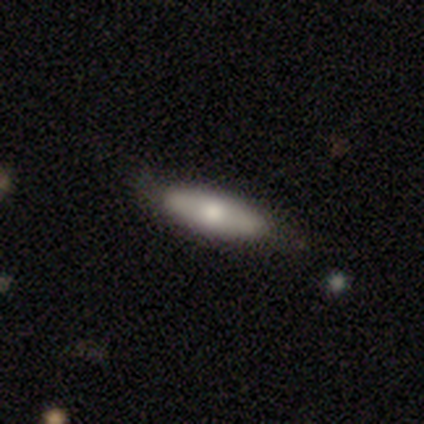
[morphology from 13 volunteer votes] smooth_or_featured: smooth (p=0.85) [alt: featured or disk p=0.15]
how_rounded: cigar-shaped (p=0.55) [alt: in between p=0.36]
merging: none (p=0.77) [alt: minor disturbance p=0.15]